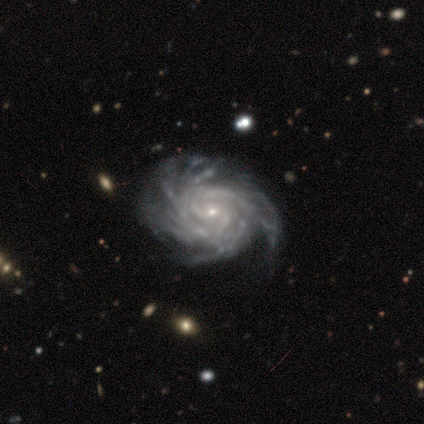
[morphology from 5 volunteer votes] Overall: featured or disk (100%). Edge-on disk: no (100%). Bar: no (80%). Spiral arms: yes (100%). Spiral arm count: more than 4 (60%; 4 20%). Spiral winding: tight (80%). Bulge size: small (80%). Merging: none (60%; minor disturbance 40%).